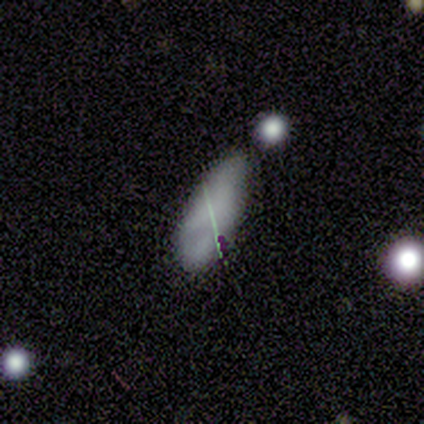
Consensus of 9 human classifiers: A smooth galaxy with no disk features (56%) that is in between round and cigar-shaped (80%).

Vote fractions:
- Smooth or featured? smooth: 56% / featured or disk: 33% / star or artifact: 11%
- How rounded? in between: 80% / cigar-shaped: 20% / round: 0%
- Merging? minor disturbance: 75% / none: 25% / major disturbance: 0% / merger: 0%